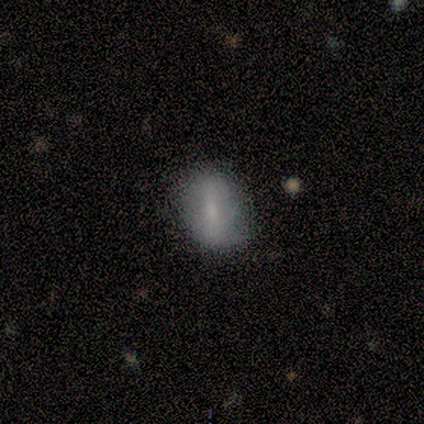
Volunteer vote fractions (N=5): A smooth galaxy with no disk features (60%) that is in between round and cigar-shaped (67%). Merging: none (75%).